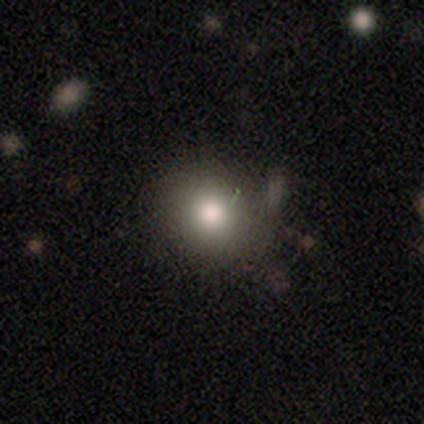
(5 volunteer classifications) Q: Smooth or featured?
A: smooth (60%); runner-up: star or artifact (40%)
Q: How rounded?
A: round (67%); runner-up: in between (33%)
Q: Merging?
A: minor disturbance (67%); runner-up: none (33%)